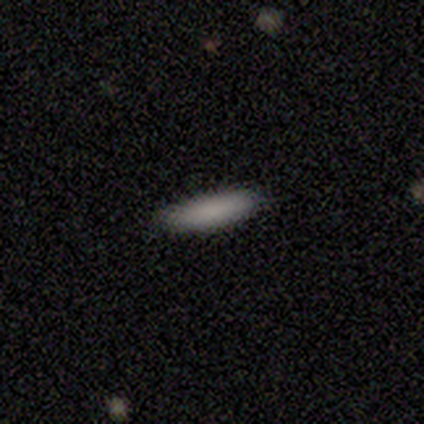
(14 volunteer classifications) smooth_or_featured: smooth (p=0.79) [alt: featured or disk p=0.14]
how_rounded: in between (p=0.55) [alt: cigar-shaped p=0.45]
merging: none (p=0.92) [alt: minor disturbance p=0.08]